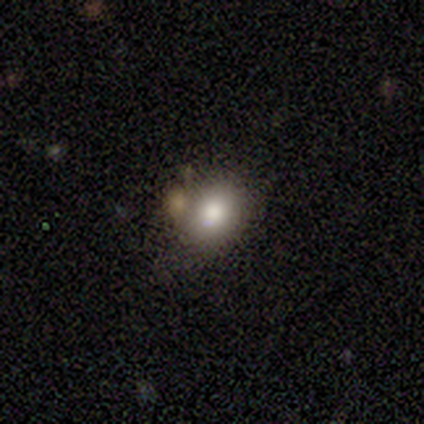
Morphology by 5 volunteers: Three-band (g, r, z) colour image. It shows a smooth galaxy with no disk features (60%) that is round (67%). Merging: none (60%).